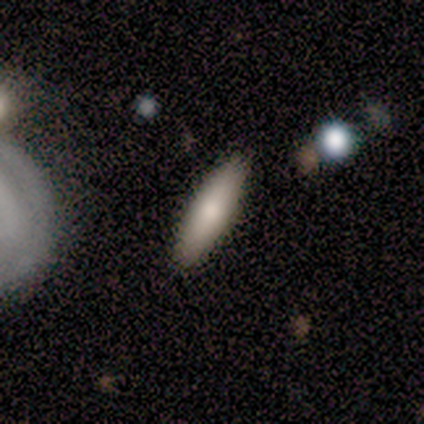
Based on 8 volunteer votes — smooth 38% (tied), featured or disk 38% (tied), star or artifact 25%. Down the decision tree: how rounded — cigar-shaped (67%); merging — none (100%).